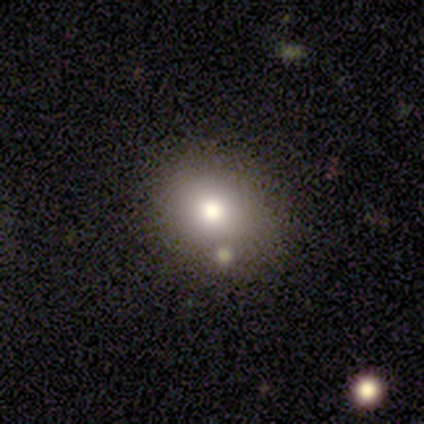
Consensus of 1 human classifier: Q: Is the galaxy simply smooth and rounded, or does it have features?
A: smooth — 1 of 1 (100%).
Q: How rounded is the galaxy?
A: in between — 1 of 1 (100%).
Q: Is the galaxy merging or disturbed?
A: none — 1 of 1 (100%).